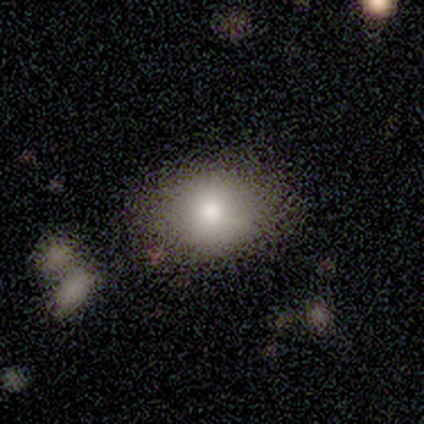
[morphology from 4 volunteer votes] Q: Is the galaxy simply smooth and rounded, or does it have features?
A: smooth — 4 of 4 (100%).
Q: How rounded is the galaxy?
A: round — 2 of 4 (50%, tied with in between).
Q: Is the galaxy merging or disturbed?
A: none — 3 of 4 (75%).